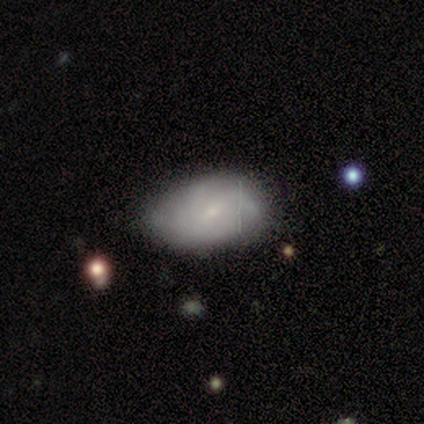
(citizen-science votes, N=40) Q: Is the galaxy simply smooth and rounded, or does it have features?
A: featured or disk — 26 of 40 (65%).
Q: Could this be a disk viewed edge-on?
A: no — 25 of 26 (96%).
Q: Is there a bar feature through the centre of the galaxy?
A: no — 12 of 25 (48%).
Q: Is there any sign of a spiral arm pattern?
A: yes — 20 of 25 (80%).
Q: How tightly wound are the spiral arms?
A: medium — 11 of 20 (55%).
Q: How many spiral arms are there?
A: can't tell — 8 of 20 (40%).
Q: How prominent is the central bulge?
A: small — 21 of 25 (84%).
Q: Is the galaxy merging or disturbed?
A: none — 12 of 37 (32%).